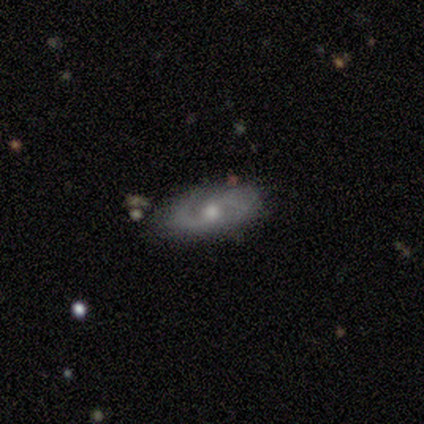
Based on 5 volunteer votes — Volunteers were most divided on "bar": no: 67%, weak: 33%, strong: 0%. More confident: edge-on disk — no (100%); spiral arms — yes (100%); spiral arm count — 2 (100%); merging — none (100%); spiral winding — medium (67%); bulge size — moderate (67%); smooth or featured — featured or disk (60%).